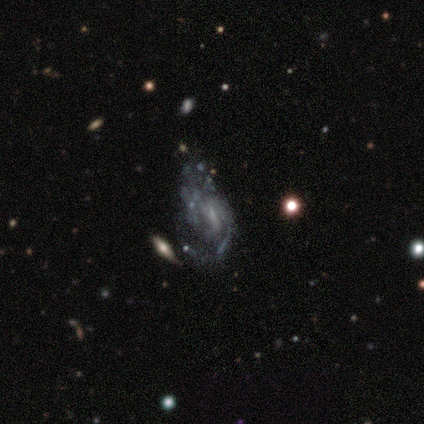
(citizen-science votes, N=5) smooth-or-featured: featured or disk: 60% | smooth: 20% | star or artifact: 20%
  disk-edge-on: no: 100% | yes: 0%
    bar: no: 67% | strong: 33% | weak: 0%
    has-spiral-arms: yes: 100% | no: 0%
      spiral-winding: medium: 67% | loose: 33% | tight: 0%
      spiral-arm-count: 1: 33% (tied) | 2: 33% (tied) | can't tell: 33% (tied) | 3: 0% | 4: 0% | more than 4: 0%
    bulge-size: none: 67% | small: 33% | dominant: 0% | large: 0% | moderate: 0%
  merging: merger: 50% | minor disturbance: 25% | major disturbance: 25% | none: 0%